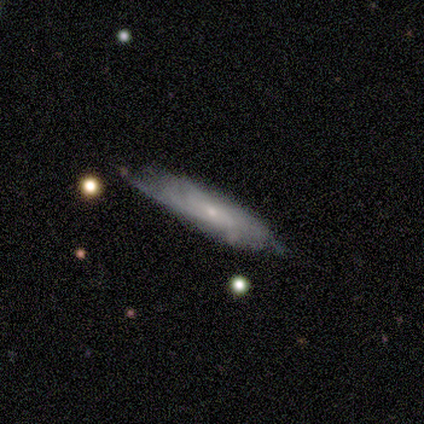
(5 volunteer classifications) Overall: featured or disk (60%; smooth 40%). Edge-on disk: no (67%; yes 33%). Bar: no (100%). Spiral arms: yes (50%, tied with no). Spiral arm count: can't tell (100%). Spiral winding: tight (100%). Bulge size: small (100%). Merging: none (60%; minor disturbance 20%).